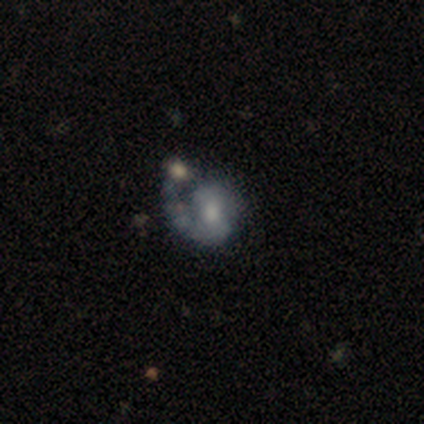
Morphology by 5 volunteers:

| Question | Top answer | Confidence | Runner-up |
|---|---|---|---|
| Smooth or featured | featured or disk | 100% | — |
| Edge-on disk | no | 100% | — |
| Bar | weak | 80% | no (20%) |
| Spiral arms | yes | 80% | no (20%) |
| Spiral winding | medium | 75% | tight (25%) |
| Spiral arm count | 1 | 75% | can't tell (25%) |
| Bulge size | none | 40% | large (20%) |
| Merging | merger | 40% | none (20%) |